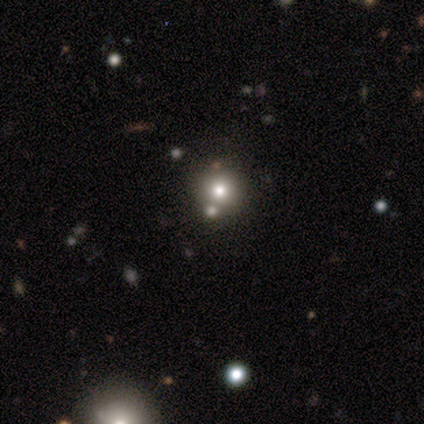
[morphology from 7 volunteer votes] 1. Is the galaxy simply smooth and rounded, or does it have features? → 71% smooth, 29% star or artifact, 0% featured or disk.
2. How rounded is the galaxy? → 100% round, 0% in between, 0% cigar-shaped.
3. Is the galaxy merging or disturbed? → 60% none, 40% merger, 0% minor disturbance, 0% major disturbance.